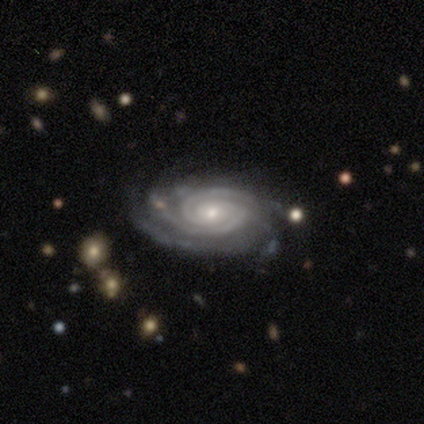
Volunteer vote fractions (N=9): Q: Smooth or featured?
A: featured or disk (100%)
Q: Edge-on disk?
A: no (100%)
Q: Bar?
A: no (67%); runner-up: weak (22%)
Q: Spiral arms?
A: yes (100%)
Q: Spiral winding?
A: tight (67%); runner-up: medium (33%)
Q: Spiral arm count?
A: 2 (44%); runner-up: 3 (33%)
Q: Bulge size?
A: moderate (56%); runner-up: small (33%)
Q: Merging?
A: none (67%); runner-up: minor disturbance (33%)